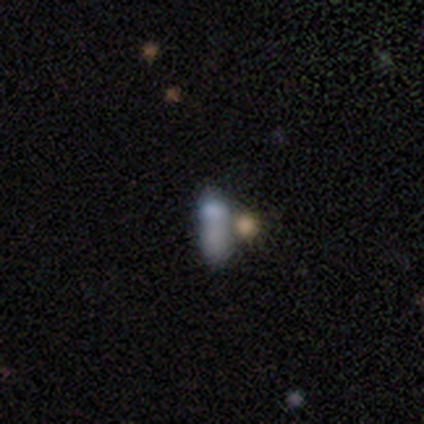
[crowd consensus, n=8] This appears to be a smooth galaxy with no disk features (62%) that is in between round and cigar-shaped (60%). Merging: merger (67%).